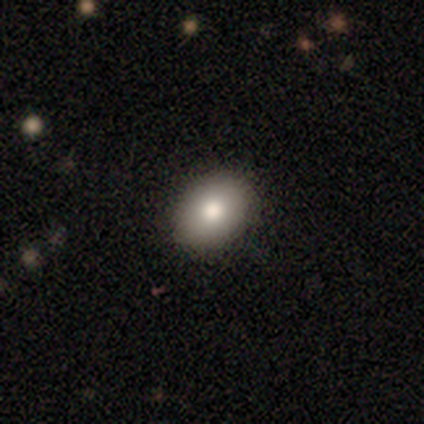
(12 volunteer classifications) Smooth or featured? 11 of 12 (92%) said smooth. How rounded? 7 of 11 (64%) said in between. Merging? 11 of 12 (92%) said none.